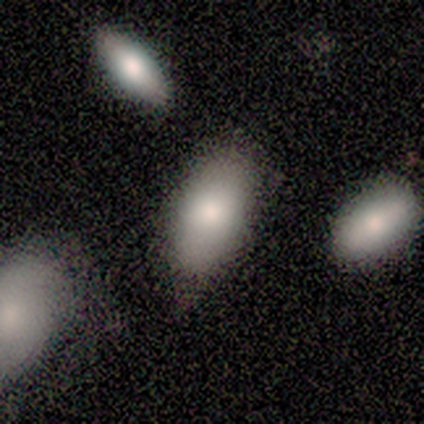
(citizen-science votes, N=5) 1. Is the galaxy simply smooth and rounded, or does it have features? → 100% smooth, 0% featured or disk, 0% star or artifact.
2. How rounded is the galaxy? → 100% in between, 0% round, 0% cigar-shaped.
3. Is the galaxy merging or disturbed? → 60% none, 40% minor disturbance, 0% major disturbance, 0% merger.